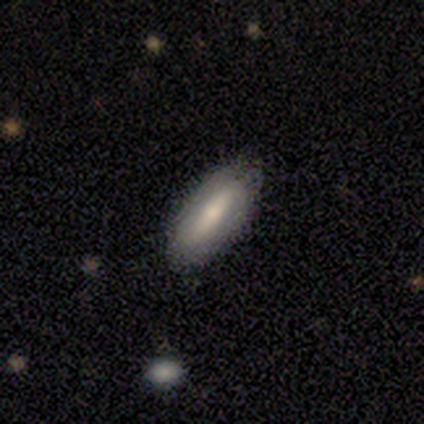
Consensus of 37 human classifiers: Smooth or featured? 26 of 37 (70%) said smooth. How rounded? 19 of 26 (73%) said in between. Merging? 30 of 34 (88%) said none.